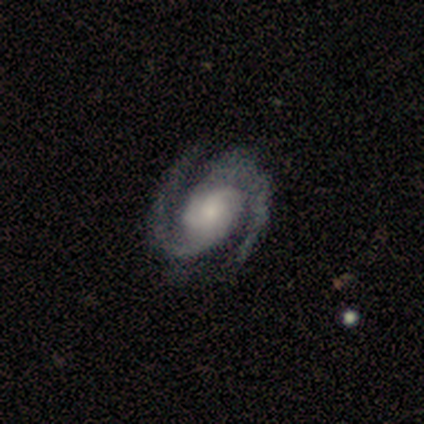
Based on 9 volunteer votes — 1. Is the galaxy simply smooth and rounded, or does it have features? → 100% featured or disk, 0% smooth, 0% star or artifact.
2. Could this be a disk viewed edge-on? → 89% no, 11% yes.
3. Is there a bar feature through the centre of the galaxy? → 88% no, 12% weak, 0% strong.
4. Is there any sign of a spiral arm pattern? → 100% yes, 0% no.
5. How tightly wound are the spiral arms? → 62% tight, 38% medium, 0% loose.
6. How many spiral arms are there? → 100% 2, 0% 1, 0% 3, 0% 4, 0% more than 4, 0% can't tell.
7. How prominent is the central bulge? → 62% small, 25% moderate, 12% large, 0% dominant, 0% none.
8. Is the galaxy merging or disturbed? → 100% none, 0% minor disturbance, 0% major disturbance, 0% merger.